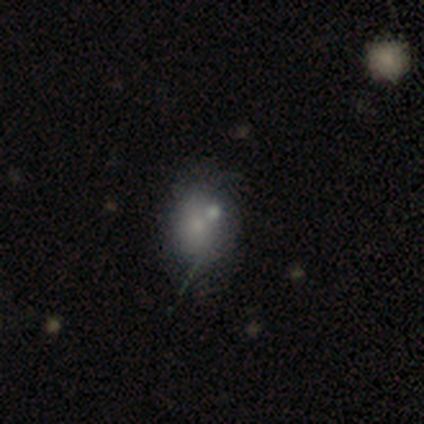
smooth-or-featured: smooth: 100% | featured or disk: 0% | star or artifact: 0%
  how-rounded: in between: 60% | round: 40% | cigar-shaped: 0%
  merging: none: 60% | minor disturbance: 40% | major disturbance: 0% | merger: 0%